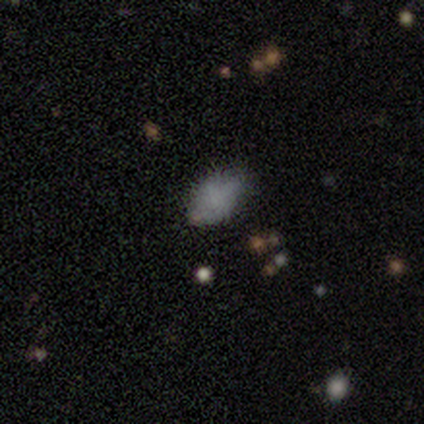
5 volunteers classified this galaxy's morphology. A smooth galaxy with no disk features (80%) that is in between round and cigar-shaped (100%).

Vote fractions:
- Smooth or featured? smooth: 80% / star or artifact: 20% / featured or disk: 0%
- How rounded? in between: 100% / round: 0% / cigar-shaped: 0%
- Merging? none: 100% / minor disturbance: 0% / major disturbance: 0% / merger: 0%